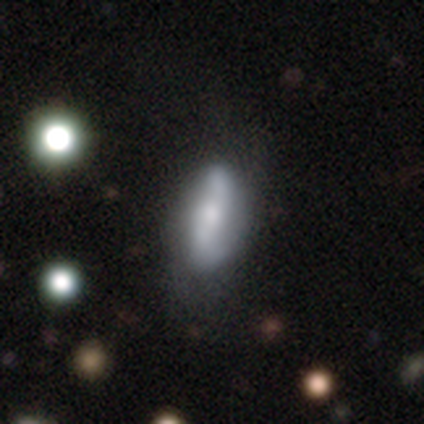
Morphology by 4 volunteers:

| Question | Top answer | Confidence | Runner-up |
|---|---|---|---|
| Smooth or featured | smooth | 50% | tied: featured or disk (50%) |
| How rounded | in between | 100% | — |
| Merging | none | 50% | minor disturbance (25%) |